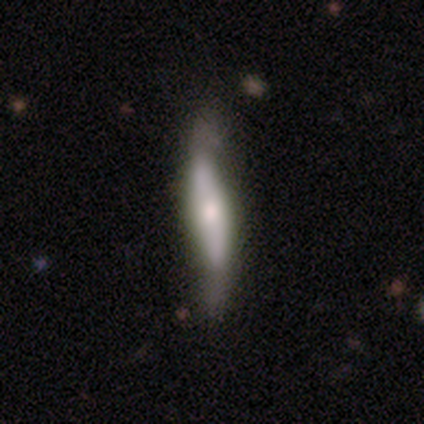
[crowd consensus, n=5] smooth-or-featured: featured or disk: 100% | smooth: 0% | star or artifact: 0%
  disk-edge-on: yes: 60% | no: 40%
    edge-on-bulge: boxy: 33% (tied) | none: 33% (tied) | rounded: 33% (tied)
  merging: none: 100% | minor disturbance: 0% | major disturbance: 0% | merger: 0%